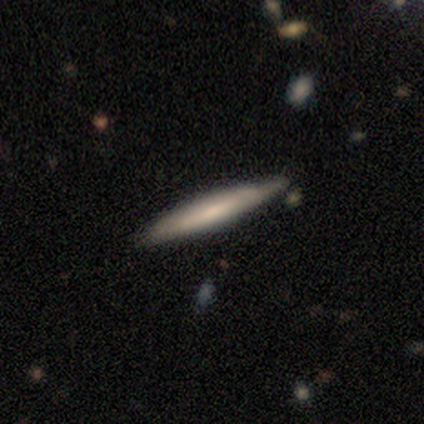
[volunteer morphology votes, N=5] This is likely a smooth galaxy (60%). How rounded: clearly cigar-shaped (100%). Merging: clearly none (100%).